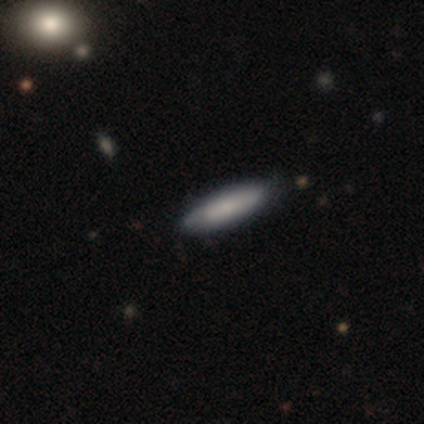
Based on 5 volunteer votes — Smooth or featured: smooth — 80% (featured or disk — 20%)
How rounded: cigar-shaped — 100%
Merging: none — 100%